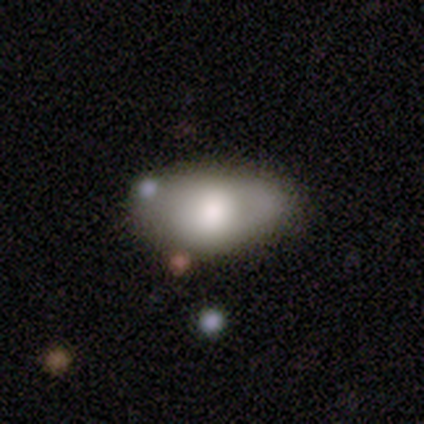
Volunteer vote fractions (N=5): smooth-or-featured: smooth: 80% | featured or disk: 20% | star or artifact: 0%
  how-rounded: in between: 100% | round: 0% | cigar-shaped: 0%
  merging: none: 60% | minor disturbance: 20% | major disturbance: 20% | merger: 0%